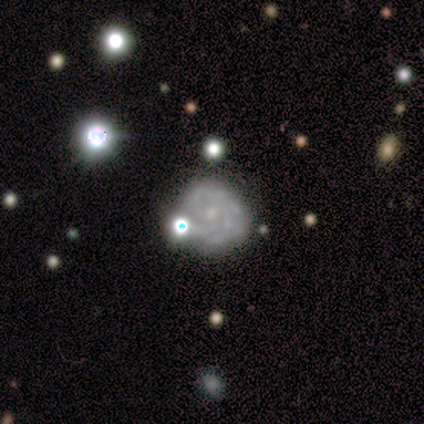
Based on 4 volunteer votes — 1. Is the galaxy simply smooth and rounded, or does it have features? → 75% featured or disk, 25% star or artifact, 0% smooth.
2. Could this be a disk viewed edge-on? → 100% no, 0% yes.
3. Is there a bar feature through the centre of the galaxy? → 67% no, 33% weak, 0% strong.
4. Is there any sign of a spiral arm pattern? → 100% yes, 0% no.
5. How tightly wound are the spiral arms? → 67% medium, 33% loose, 0% tight.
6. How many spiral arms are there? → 67% 3, 33% 4, 0% 1, 0% 2, 0% more than 4, 0% can't tell.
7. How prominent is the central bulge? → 100% small, 0% dominant, 0% large, 0% moderate, 0% none.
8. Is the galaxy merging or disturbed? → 100% none, 0% minor disturbance, 0% major disturbance, 0% merger.